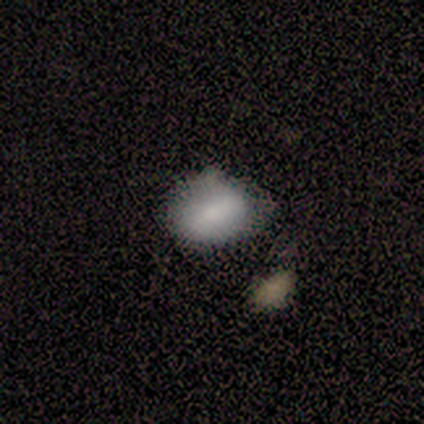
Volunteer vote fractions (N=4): smooth_or_featured: smooth (p=1.00)
how_rounded: in between (p=0.75) [alt: round p=0.25]
merging: none (p=1.00)